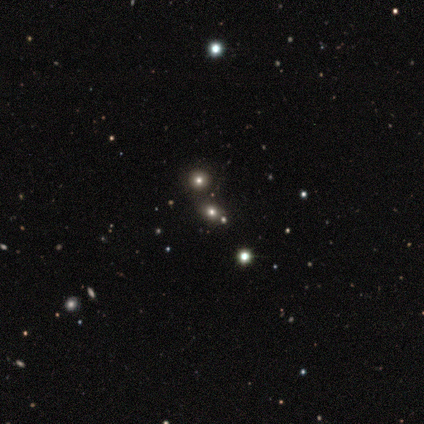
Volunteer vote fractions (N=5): smooth-or-featured: smooth: 60% | star or artifact: 40% | featured or disk: 0%
  how-rounded: round: 67% | in between: 33% | cigar-shaped: 0%
  merging: none: 100% | minor disturbance: 0% | major disturbance: 0% | merger: 0%